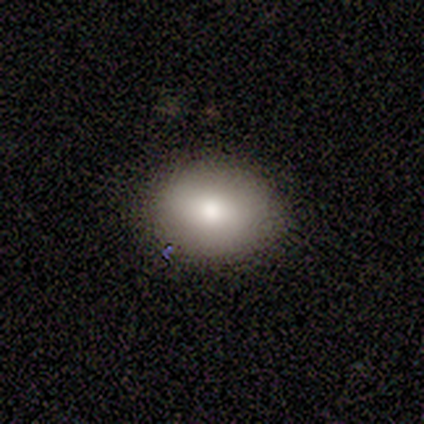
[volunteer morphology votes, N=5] type=smooth (100%); roundness=round (60%); merging=none (100%).